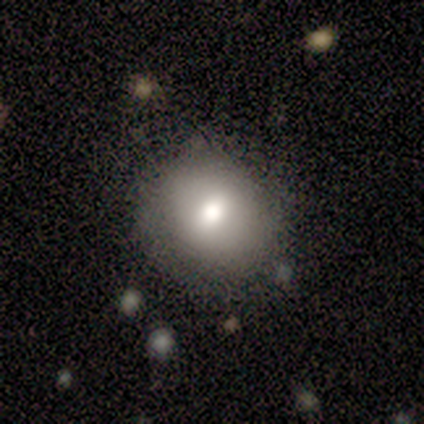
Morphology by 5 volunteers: Smooth or featured? 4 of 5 (80%) said smooth. How rounded? 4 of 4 (100%) said round. Merging? 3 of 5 (60%) said none.